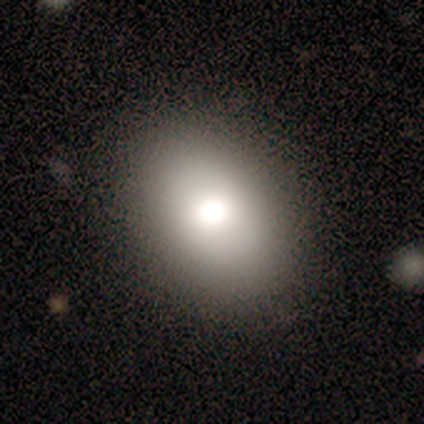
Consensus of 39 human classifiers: smooth-or-featured: smooth: 69% | star or artifact: 18% | featured or disk: 13%
  how-rounded: in between: 85% | round: 15% | cigar-shaped: 0%
  merging: none: 91% | minor disturbance: 6% | major disturbance: 3% | merger: 0%